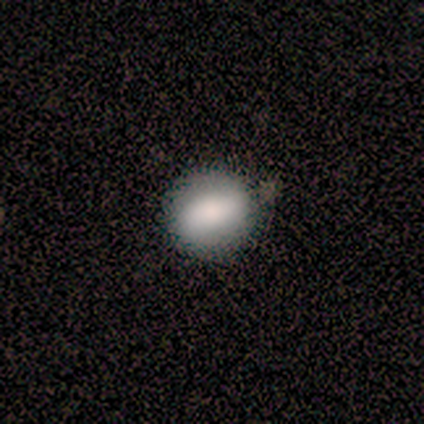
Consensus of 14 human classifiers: A smooth galaxy with no disk features (86%) that is round (67%).

Vote fractions:
- Smooth or featured? smooth: 86% / featured or disk: 7% / star or artifact: 7%
- How rounded? round: 67% / in between: 33% / cigar-shaped: 0%
- Merging? none: 69% / minor disturbance: 31% / major disturbance: 0% / merger: 0%